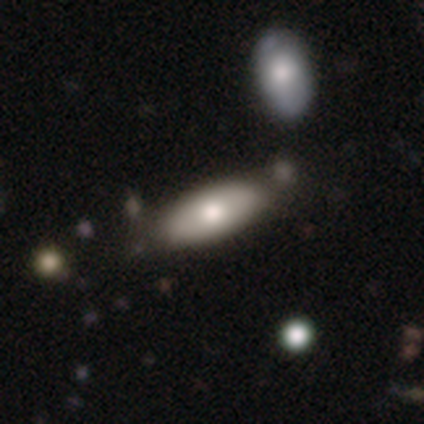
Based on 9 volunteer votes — A smooth galaxy with no disk features (78%) that is in between round and cigar-shaped (71%).

Vote fractions:
- Smooth or featured? smooth: 78% / featured or disk: 22% / star or artifact: 0%
- How rounded? in between: 71% / cigar-shaped: 29% / round: 0%
- Merging? none: 78% / minor disturbance: 22% / major disturbance: 0% / merger: 0%